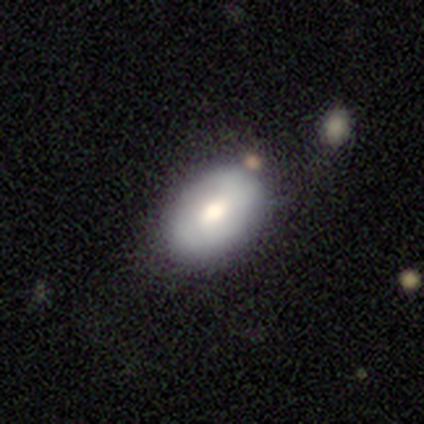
Overall: featured or disk (60%; smooth 20%). Edge-on disk: no (100%). Bar: no (100%). Spiral arms: no (100%). Bulge size: moderate (100%). Merging: none (75%).